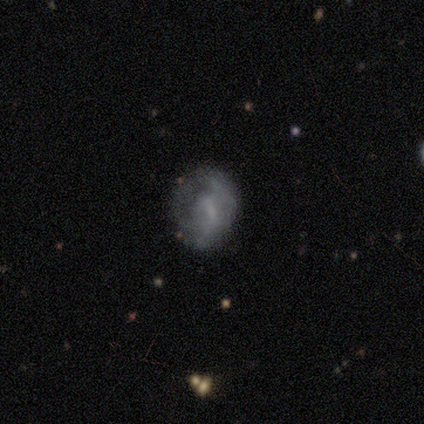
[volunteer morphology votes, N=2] Volunteers were most divided on "smooth or featured" (2-way tie): smooth: 50%, star or artifact: 50%, featured or disk: 0%. More confident: how rounded — round (100%); merging — none (100%).